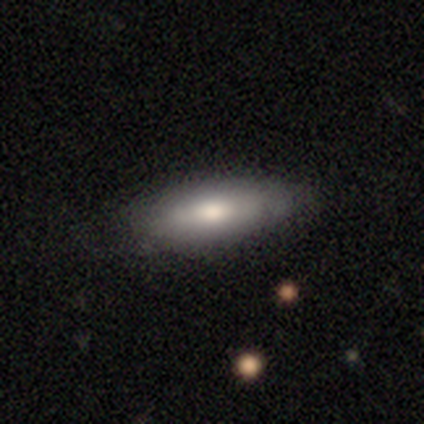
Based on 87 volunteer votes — Overall: smooth (72%). How rounded: in between (67%; cigar-shaped 33%). Merging: none (73%).